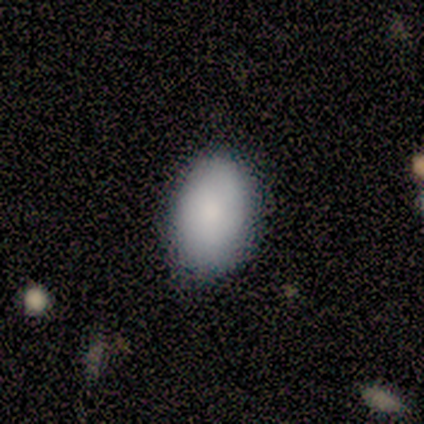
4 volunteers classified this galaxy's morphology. smooth-or-featured: smooth: 75% | featured or disk: 25% | star or artifact: 0%
  how-rounded: in between: 67% | round: 33% | cigar-shaped: 0%
  merging: none: 100% | minor disturbance: 0% | major disturbance: 0% | merger: 0%